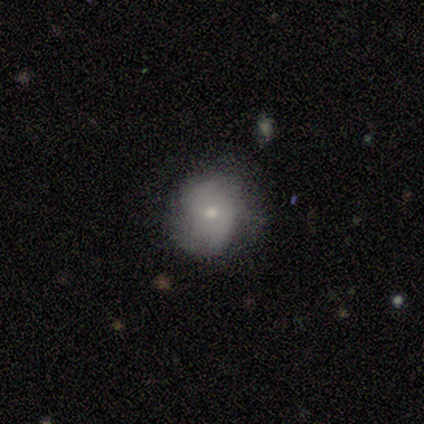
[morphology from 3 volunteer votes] smooth_or_featured: smooth (p=0.33) [tied with: featured or disk p=0.33, star or artifact p=0.33]
how_rounded: in between (p=1.00)
merging: none (p=1.00)